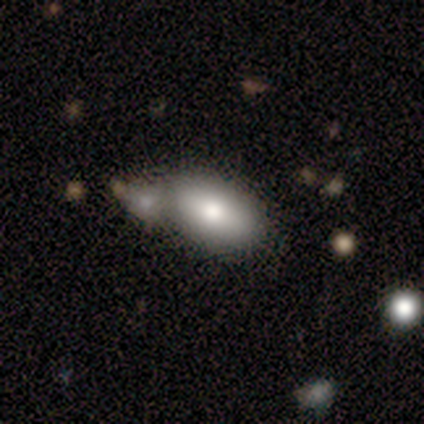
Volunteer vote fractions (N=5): Smooth or featured?
  - smooth: 80% *
  - star or artifact: 20%
  - featured or disk: 0%
How rounded?
  - in between: 100% *
  - round: 0%
  - cigar-shaped: 0%
Merging?
  - merger: 75% *
  - none: 25%
  - minor disturbance: 0%
  - major disturbance: 0%